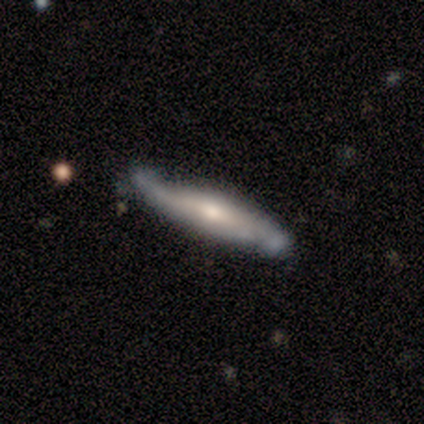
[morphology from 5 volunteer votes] smooth_or_featured: smooth (p=0.60) [alt: featured or disk p=0.40]
how_rounded: cigar-shaped (p=1.00)
merging: minor disturbance (p=0.60) [alt: none p=0.20]